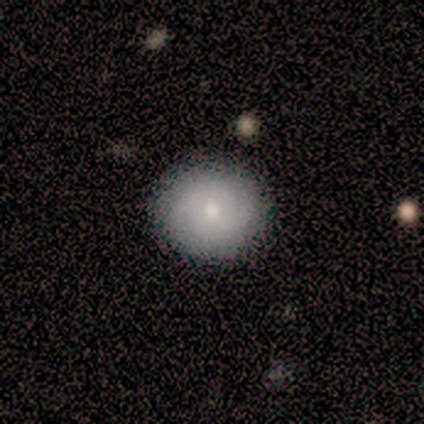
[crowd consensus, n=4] A featured or disk galaxy (50%, tied with star or artifact) with no bar (100%), medium (100%) spiral arms (50%, tied with no) and a moderate central bulge (50%, tied with small). Merging: none (100%).